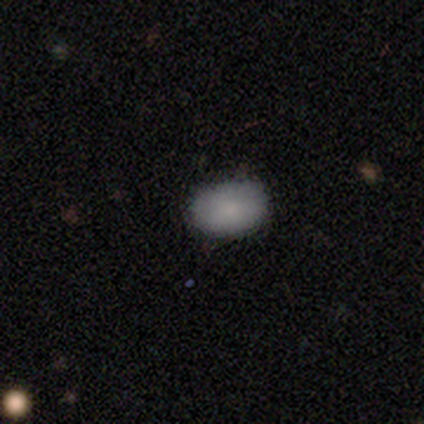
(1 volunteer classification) Consensus on every question: smooth or featured — smooth (100%); how rounded — in between (100%); merging — none (100%).